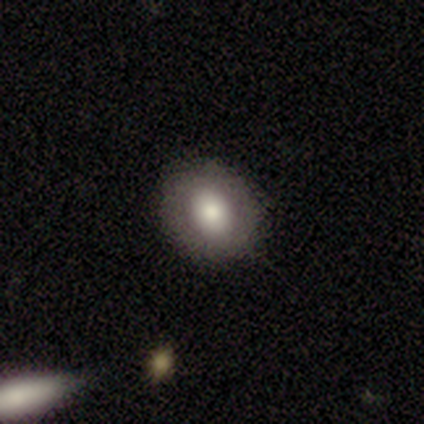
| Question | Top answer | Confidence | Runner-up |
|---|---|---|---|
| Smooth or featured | smooth | 80% | featured or disk (20%) |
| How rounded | round | 100% | — |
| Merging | none | 100% | — |